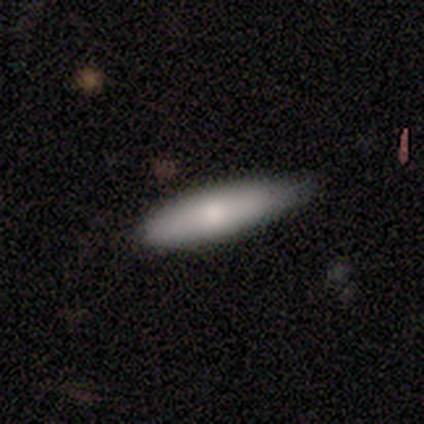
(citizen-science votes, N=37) smooth 86%, featured or disk 11%, star or artifact 3%. Down the decision tree: how rounded — cigar-shaped (62%); merging — none (64%).